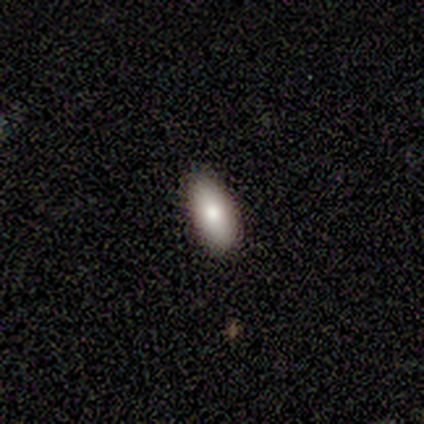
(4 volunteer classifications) Morphology: type=smooth (75%); roundness=in between (100%); merging=none (100%).